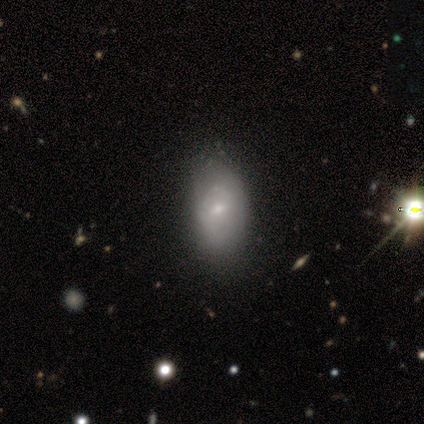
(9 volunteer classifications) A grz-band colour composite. It shows a smooth galaxy with no disk features (44%, tied with featured or disk) that is in between round and cigar-shaped (100%). Merging: none (75%).